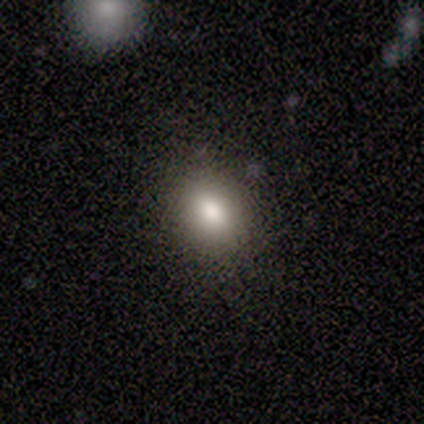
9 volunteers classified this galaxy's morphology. This is likely a smooth galaxy (78%). How rounded: likely round (71%). Merging: clearly none (100%).